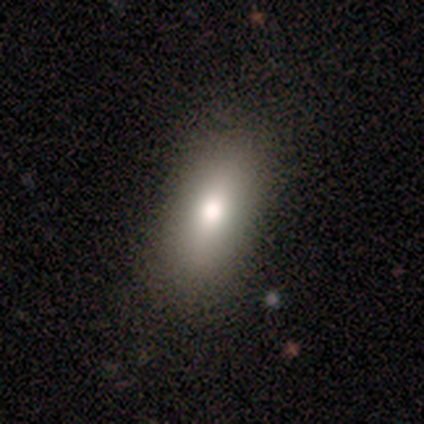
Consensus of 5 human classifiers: smooth-or-featured: smooth: 60% | featured or disk: 20% | star or artifact: 20%
  how-rounded: in between: 100% | round: 0% | cigar-shaped: 0%
  merging: none: 100% | minor disturbance: 0% | major disturbance: 0% | merger: 0%